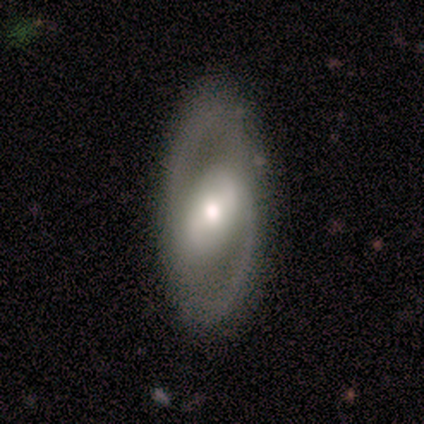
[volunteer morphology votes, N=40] This is likely a featured or disk galaxy (75%). It is clearly not viewed edge-on (83%). Bar: possibly weak (56%). Spiral arm pattern: likely yes (60%). Spiral arm count: clearly 2 (93%). Spiral winding: marginally medium (40%, tied with loose). Central bulge: likely moderate (68%). Merging: likely none (69%).